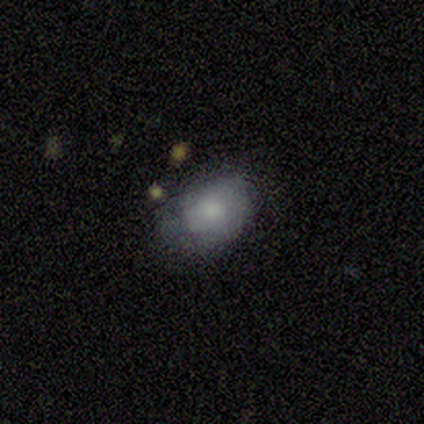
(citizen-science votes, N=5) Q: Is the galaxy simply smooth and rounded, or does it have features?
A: smooth — 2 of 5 (40%, tied with featured or disk).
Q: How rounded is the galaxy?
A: in between — 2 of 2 (100%).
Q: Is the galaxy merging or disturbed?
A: none — 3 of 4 (75%).